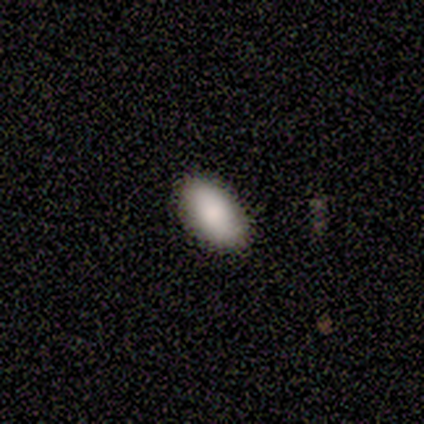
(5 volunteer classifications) smooth 80%, featured or disk 20%, star or artifact 0%. Down the decision tree: how rounded — in between (100%); merging — none (80%).